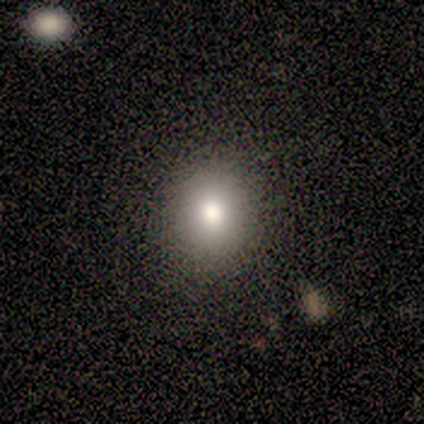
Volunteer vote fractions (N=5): smooth-or-featured: smooth: 80% | star or artifact: 20% | featured or disk: 0%
  how-rounded: round: 75% | in between: 25% | cigar-shaped: 0%
  merging: none: 100% | minor disturbance: 0% | major disturbance: 0% | merger: 0%